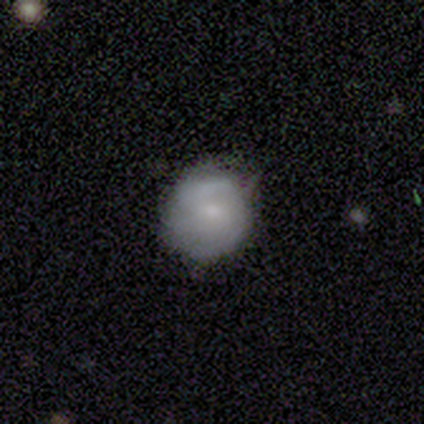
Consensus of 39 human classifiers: Overall: smooth (64%; featured or disk 36%). How rounded: round (84%). Merging: none (74%).